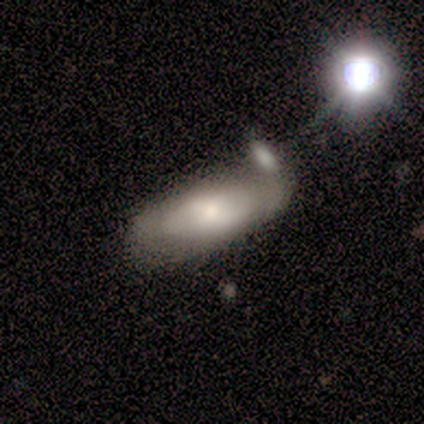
Smooth or featured?
  - smooth: 50% * (tied)
  - featured or disk: 50% * (tied)
  - star or artifact: 0%
How rounded?
  - in between: 50% * (tied)
  - cigar-shaped: 50% * (tied)
  - round: 0%
Merging?
  - merger: 50% *
  - none: 25%
  - minor disturbance: 25%
  - major disturbance: 0%